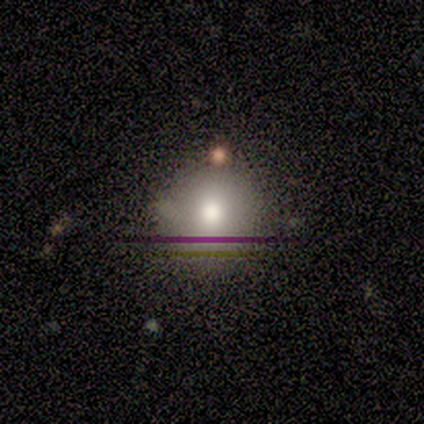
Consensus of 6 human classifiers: Overall: smooth (50%, tied with star or artifact). How rounded: round (100%). Merging: none (100%).